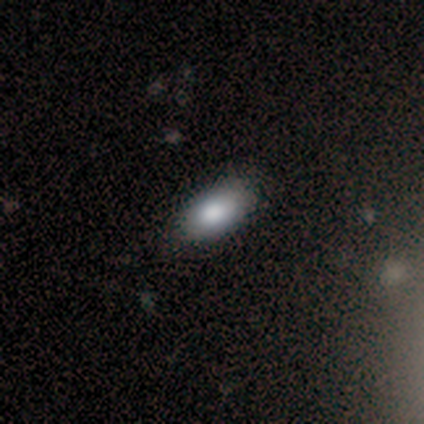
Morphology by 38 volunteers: type=smooth (89%); roundness=in between (94%); merging=none (70%).